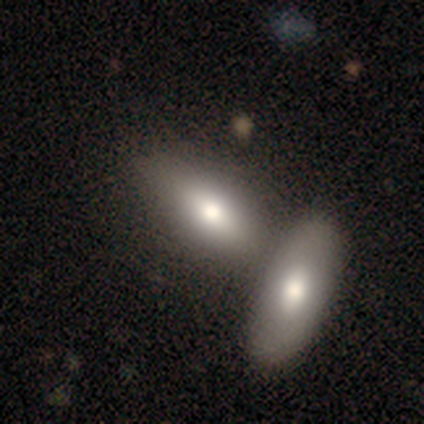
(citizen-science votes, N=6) Q: Smooth or featured?
A: star or artifact (50%); runner-up: smooth (33%)